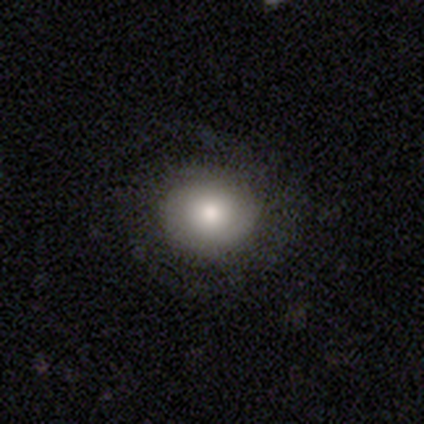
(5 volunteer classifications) smooth 60%, featured or disk 40%, star or artifact 0%. Down the decision tree: how rounded — round (100%); merging — none (80%).